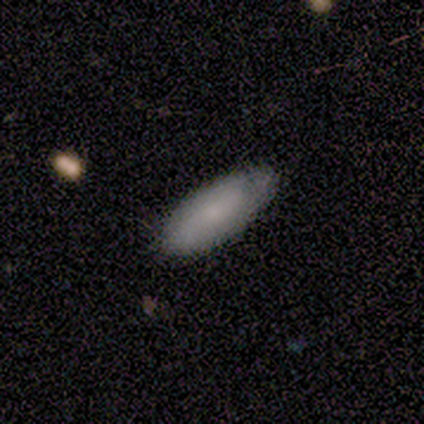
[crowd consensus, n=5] This is clearly a smooth galaxy (80%). How rounded: likely in between (75%). Merging: likely none (60%).